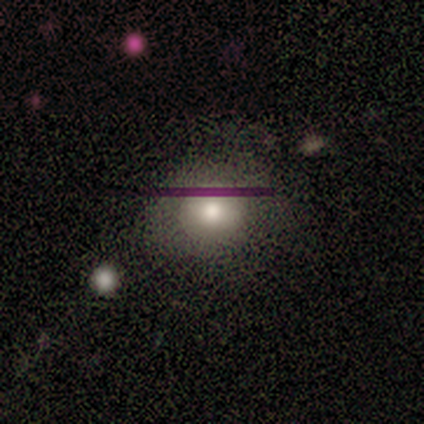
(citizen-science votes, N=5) Smooth or featured: star or artifact — 60% (smooth — 40%)